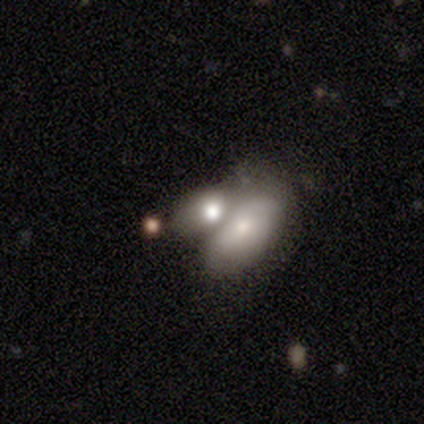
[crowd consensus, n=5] Q: Smooth or featured?
A: smooth (80%); runner-up: featured or disk (20%)
Q: How rounded?
A: in between (75%); runner-up: round (25%)
Q: Merging?
A: merger (60%); runner-up: major disturbance (40%)